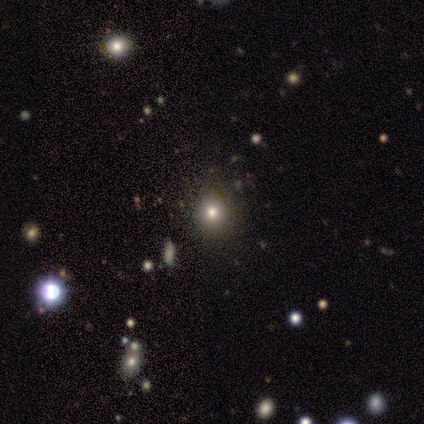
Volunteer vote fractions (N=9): smooth_or_featured: smooth (p=0.56) [alt: star or artifact p=0.44]
how_rounded: round (p=0.80) [alt: in between p=0.20]
merging: none (p=0.80) [alt: minor disturbance p=0.20]